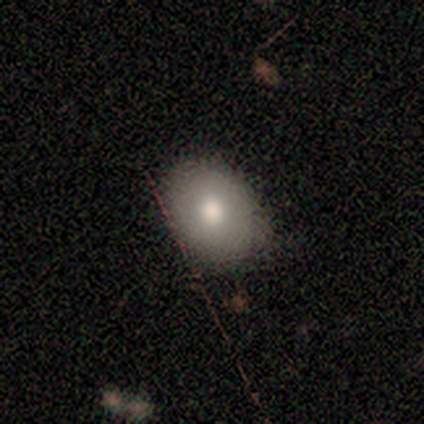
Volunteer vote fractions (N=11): A smooth galaxy with no disk features (55%) that is in between round and cigar-shaped (83%).

Vote fractions:
- Smooth or featured? smooth: 55% / star or artifact: 27% / featured or disk: 18%
- How rounded? in between: 83% / round: 17% / cigar-shaped: 0%
- Merging? none: 100% / minor disturbance: 0% / major disturbance: 0% / merger: 0%